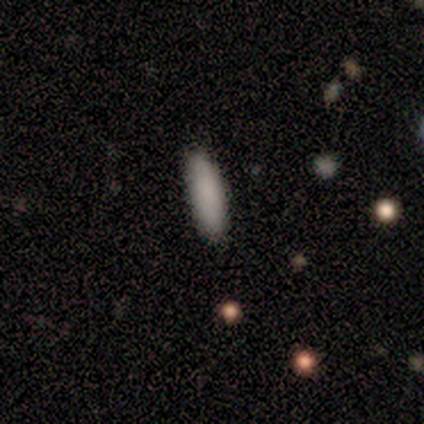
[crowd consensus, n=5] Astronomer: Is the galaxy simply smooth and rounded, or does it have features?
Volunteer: smooth — 100%.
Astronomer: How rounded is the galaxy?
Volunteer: cigar-shaped — 60% (runner-up: in between, 40%).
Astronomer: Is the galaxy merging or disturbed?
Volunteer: none — 80%.